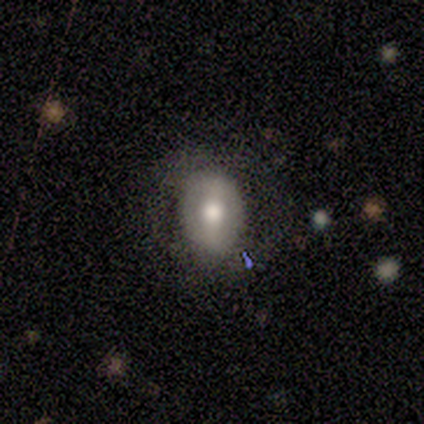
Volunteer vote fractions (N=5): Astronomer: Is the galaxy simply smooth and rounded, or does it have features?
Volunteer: smooth — 100%.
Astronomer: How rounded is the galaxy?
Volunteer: in between — 80%.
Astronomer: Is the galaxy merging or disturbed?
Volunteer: none — 40%, tied with major disturbance at 40%.